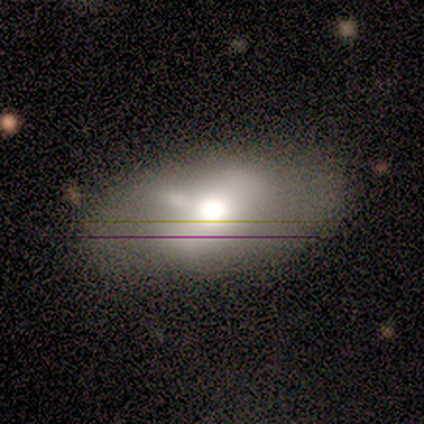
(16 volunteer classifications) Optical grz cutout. It shows a smooth galaxy with no disk features (50%) that is in between round and cigar-shaped (88%). Merging: none (57%).